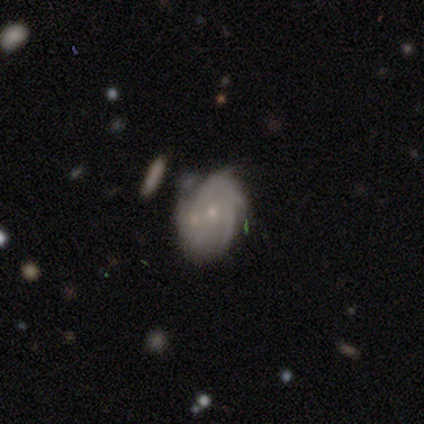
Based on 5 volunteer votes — This is clearly a featured or disk galaxy (100%). It is clearly not viewed edge-on (80%). Bar: likely no (75%). Spiral arm pattern: clearly yes (100%). Spiral arm count: likely 3 (75%). Spiral winding: likely tight (75%). Central bulge: likely moderate (75%). Merging: marginally minor disturbance (40%).